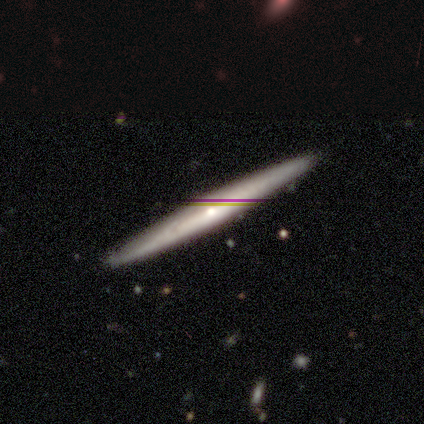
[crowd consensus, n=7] Morphology: type=featured or disk (57%); edge-on=yes (100%); edge-on bulge=rounded (75%); merging=none (83%).